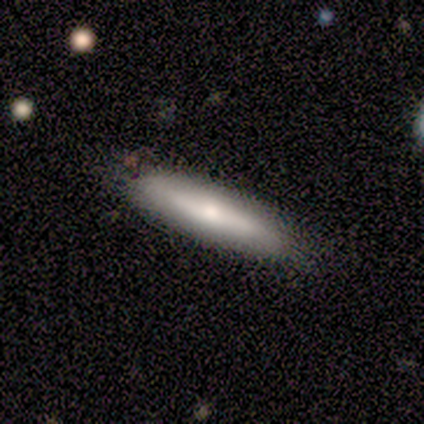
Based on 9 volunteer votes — Smooth or featured?
  - smooth: 67% *
  - featured or disk: 33%
  - star or artifact: 0%
How rounded?
  - cigar-shaped: 100% *
  - round: 0%
  - in between: 0%
Merging?
  - none: 89% *
  - minor disturbance: 11%
  - major disturbance: 0%
  - merger: 0%